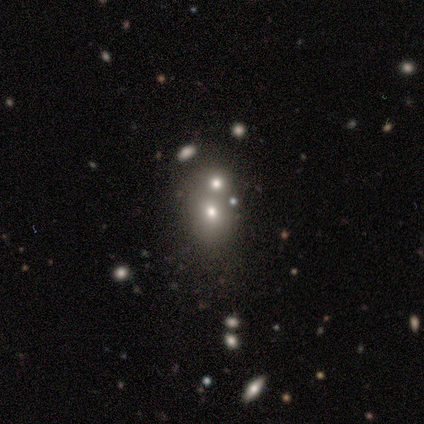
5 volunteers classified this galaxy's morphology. Smooth or featured?
  - smooth: 60% *
  - featured or disk: 20%
  - star or artifact: 20%
How rounded?
  - in between: 67% *
  - round: 33%
  - cigar-shaped: 0%
Merging?
  - none: 50% * (tied)
  - merger: 50% * (tied)
  - minor disturbance: 0%
  - major disturbance: 0%